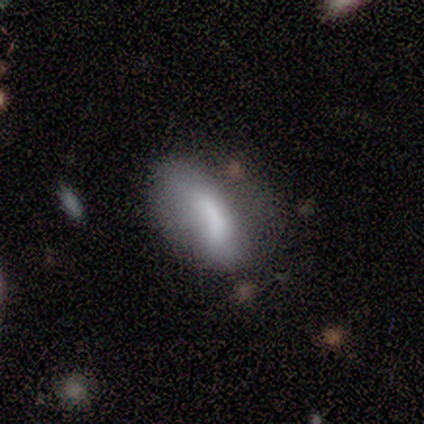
smooth_or_featured: smooth (p=0.80) [alt: featured or disk p=0.20]
how_rounded: in between (p=1.00)
merging: minor disturbance (p=0.60) [alt: none p=0.20]